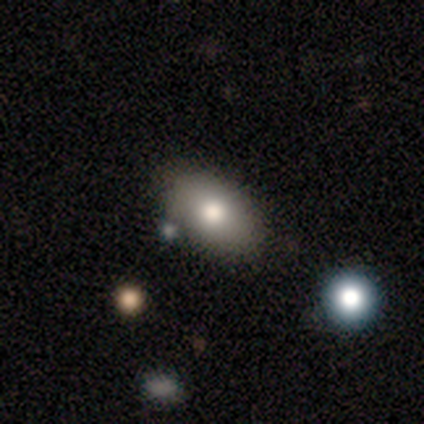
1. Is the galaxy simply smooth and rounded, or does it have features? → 76% smooth, 18% featured or disk, 5% star or artifact.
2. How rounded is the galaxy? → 86% in between, 7% round, 7% cigar-shaped.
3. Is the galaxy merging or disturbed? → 75% none, 14% minor disturbance, 11% merger, 0% major disturbance.